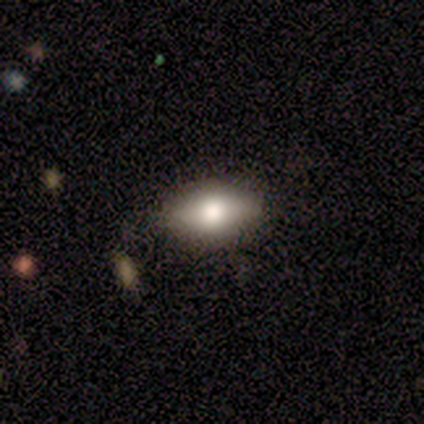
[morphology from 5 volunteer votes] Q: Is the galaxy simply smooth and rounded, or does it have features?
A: smooth — 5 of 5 (100%).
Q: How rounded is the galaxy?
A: in between — 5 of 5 (100%).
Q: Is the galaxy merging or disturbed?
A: none — 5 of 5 (100%).